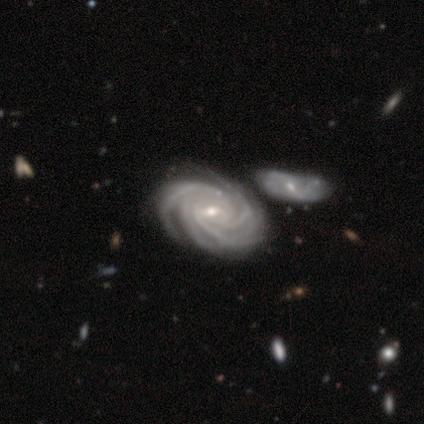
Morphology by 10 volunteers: Smooth or featured?
  - featured or disk: 100% *
  - smooth: 0%
  - star or artifact: 0%
Edge-on disk?
  - no: 100% *
  - yes: 0%
Bar?
  - strong: 40% * (tied)
  - weak: 40% * (tied)
  - no: 20%
Spiral arms?
  - yes: 100% *
  - no: 0%
Spiral winding?
  - tight: 100% *
  - medium: 0%
  - loose: 0%
Spiral arm count?
  - 4: 50% *
  - more than 4: 40%
  - can't tell: 10%
  - 1: 0%
  - 2: 0%
  - 3: 0%
Bulge size?
  - small: 80% *
  - moderate: 20%
  - dominant: 0%
  - large: 0%
  - none: 0%
Merging?
  - none: 70% *
  - merger: 30%
  - minor disturbance: 0%
  - major disturbance: 0%